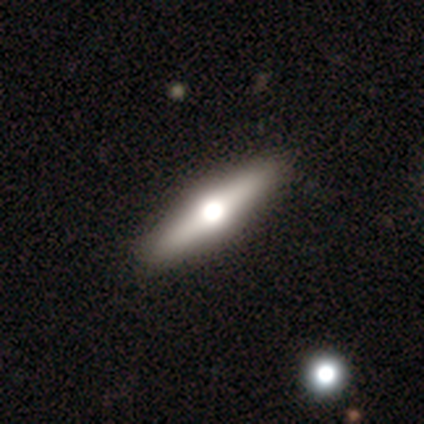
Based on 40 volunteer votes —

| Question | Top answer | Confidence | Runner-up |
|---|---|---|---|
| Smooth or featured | featured or disk | 60% | smooth (38%) |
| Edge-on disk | yes | 96% | no (4%) |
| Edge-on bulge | rounded | 96% | boxy (4%) |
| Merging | none | 82% | — |